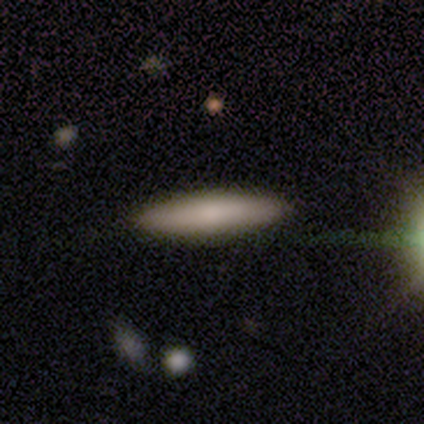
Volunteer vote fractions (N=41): smooth_or_featured: smooth (p=0.76) [alt: featured or disk p=0.24]
how_rounded: cigar-shaped (p=0.71) [alt: in between p=0.29]
merging: none (p=0.66) [alt: minor disturbance p=0.05]